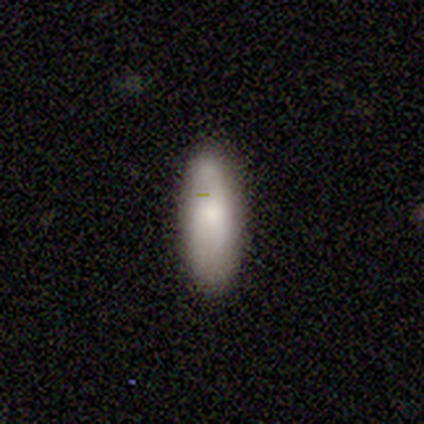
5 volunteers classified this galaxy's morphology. type=smooth (100%); roundness=in between (80%); merging=none (60%).